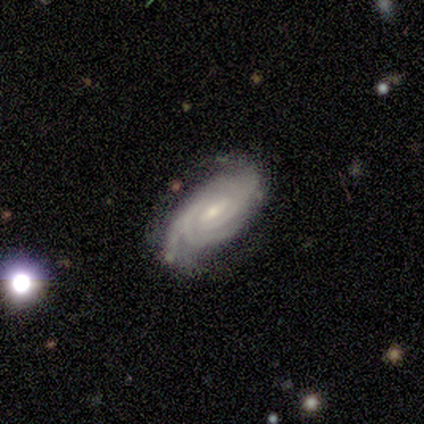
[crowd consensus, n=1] smooth-or-featured: smooth: 100% | featured or disk: 0% | star or artifact: 0%
  how-rounded: cigar-shaped: 100% | round: 0% | in between: 0%
  merging: minor disturbance: 100% | none: 0% | major disturbance: 0% | merger: 0%